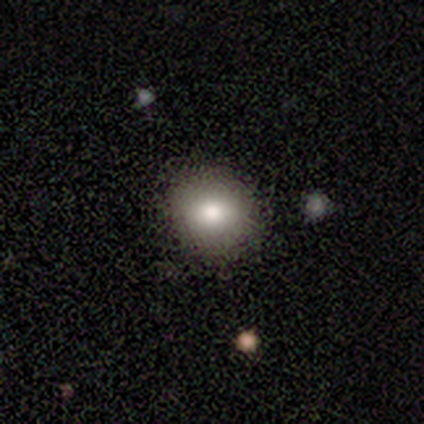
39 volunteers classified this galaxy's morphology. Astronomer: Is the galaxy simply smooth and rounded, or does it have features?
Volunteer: smooth — 90%.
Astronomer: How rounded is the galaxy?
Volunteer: round — 86%.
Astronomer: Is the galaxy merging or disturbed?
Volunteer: none — 57%.